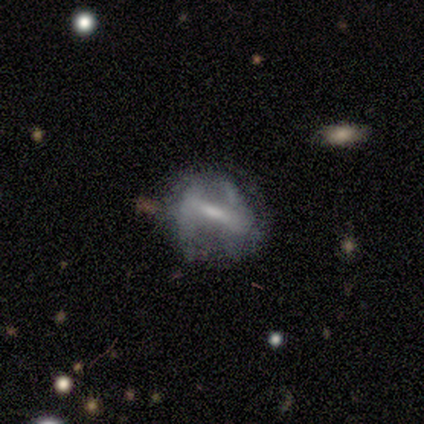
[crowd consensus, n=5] This appears to be a featured or disk galaxy (80%) with a strong bar (50%), 2 (67%) loose (67%) spiral arms (75%) and a large central bulge (25%, tied with moderate, small and none). Merging: none (75%).